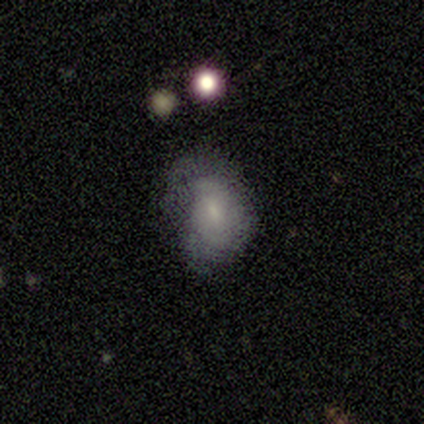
Smooth or featured: smooth — 100%
How rounded: in between — 75% (round — 25%)
Merging: none — 50% (minor disturbance — 25%)